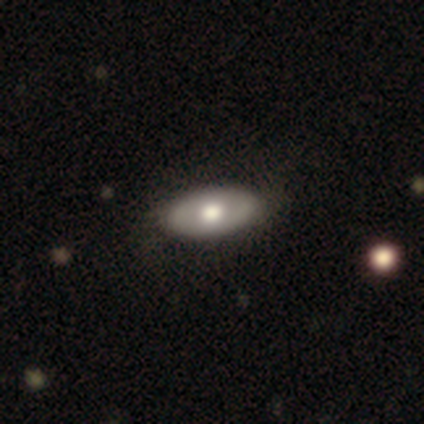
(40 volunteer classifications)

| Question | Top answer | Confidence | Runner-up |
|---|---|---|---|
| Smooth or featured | featured or disk | 52% | smooth (45%) |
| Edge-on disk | no | 90% | yes (10%) |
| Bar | no | 89% | strong (5%) |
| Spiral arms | no | 79% | yes (21%) |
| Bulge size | moderate | 68% | large (32%) |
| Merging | none | 49% | major disturbance (5%) |